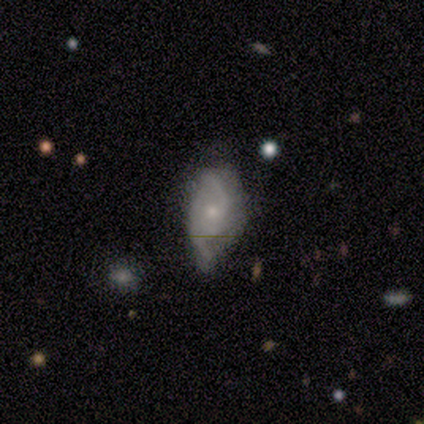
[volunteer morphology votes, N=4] Smooth or featured: featured or disk — 75% (star or artifact — 25%)
Edge-on disk: no — 100%
Bar: no — 67% (weak — 33%)
Spiral arms: yes — 100%
Spiral winding: tight — 33% (tied with medium — 33%; loose — 33%)
Spiral arm count: 2 — 67% (can't tell — 33%)
Bulge size: moderate — 67% (small — 33%)
Merging: minor disturbance — 67% (none — 33%)